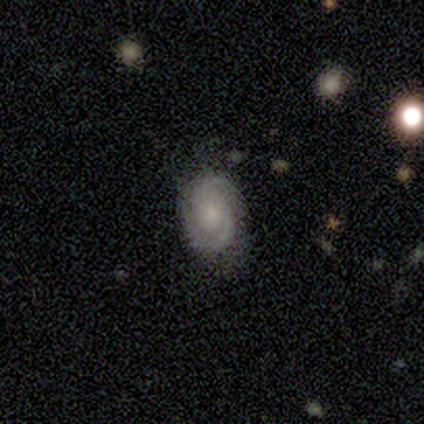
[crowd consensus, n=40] Morphology: type=featured or disk (72%); edge-on=no (97%); bar=no (61%); spiral arms=yes (100%); winding=tight (50%); arm count=2 (68%); bulge=small (75%); merging=none (74%).